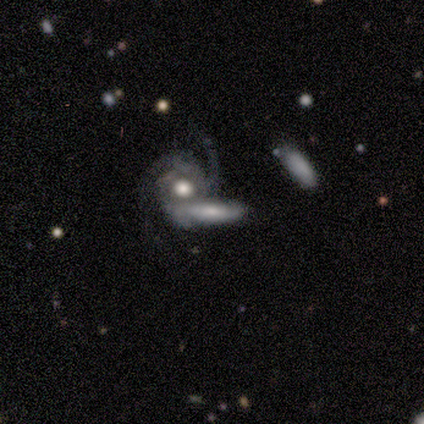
Smooth or featured? 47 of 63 (75%) said featured or disk. Edge-on disk? 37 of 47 (79%) said no. Bar? 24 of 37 (65%) said no. Spiral arms? 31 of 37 (84%) said yes. Spiral winding? 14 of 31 (45%) said tight. Spiral arm count? 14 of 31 (45%) said 2. Bulge size? 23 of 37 (62%) said moderate. Merging? 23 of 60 (38%) said merger.